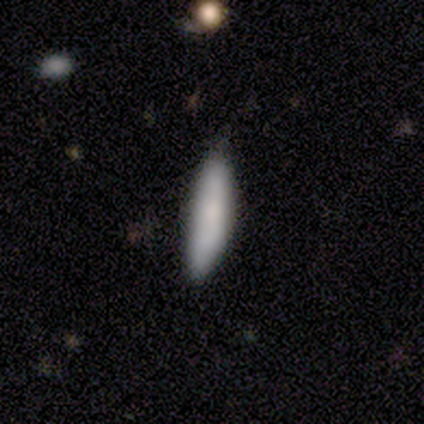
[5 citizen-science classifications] Overall: smooth (100%). How rounded: cigar-shaped (100%). Merging: none (80%).